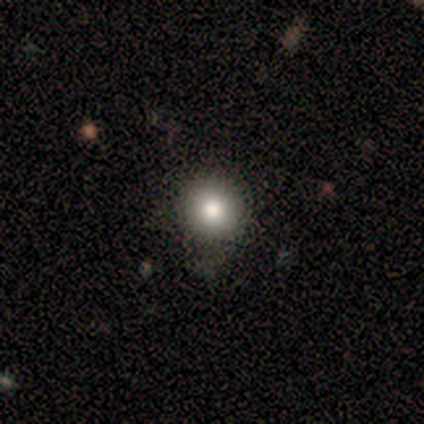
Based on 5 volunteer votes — Smooth or featured? 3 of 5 (60%) said smooth. How rounded? 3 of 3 (100%) said round. Merging? 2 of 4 (50%, tied with minor disturbance) said none.